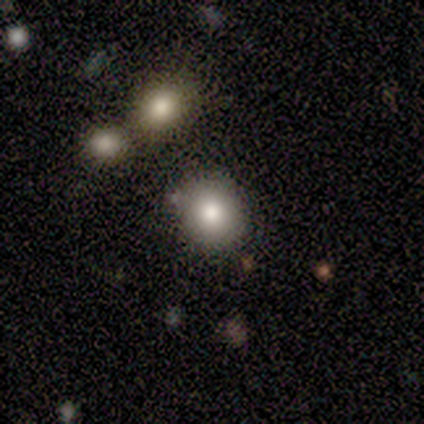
Smooth or featured: smooth — 100%
How rounded: round — 80% (in between — 20%)
Merging: none — 80% (minor disturbance — 20%)